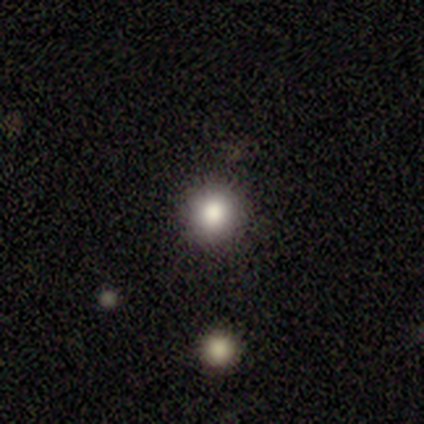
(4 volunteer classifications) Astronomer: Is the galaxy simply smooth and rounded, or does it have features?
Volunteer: smooth — 75%.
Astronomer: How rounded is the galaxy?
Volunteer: round — 100%.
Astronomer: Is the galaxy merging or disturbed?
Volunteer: none — 100%.